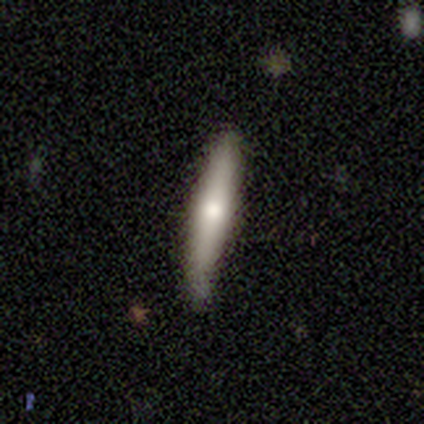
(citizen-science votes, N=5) Smooth or featured: smooth — 80% (featured or disk — 20%)
How rounded: cigar-shaped — 100%
Merging: none — 80% (minor disturbance — 20%)